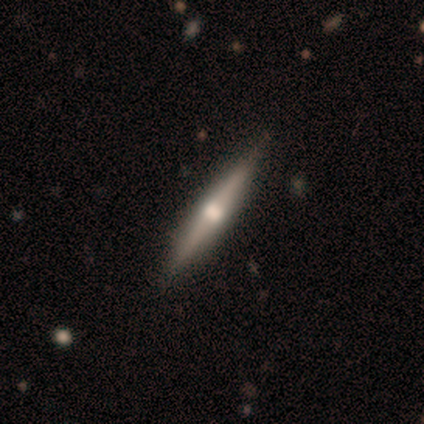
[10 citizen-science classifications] Smooth or featured: featured or disk — 80% (smooth — 20%)
Edge-on disk: yes — 100%
Edge-on bulge: rounded — 75% (none — 25%)
Merging: none — 90% (major disturbance — 10%)